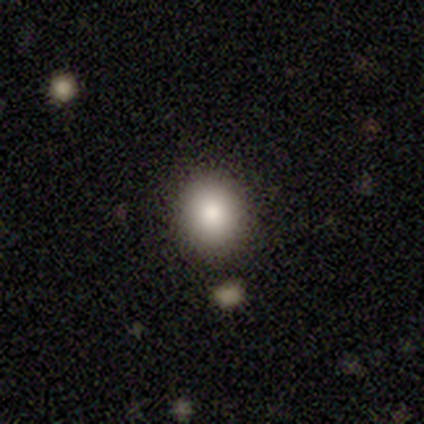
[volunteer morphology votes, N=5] Smooth or featured? 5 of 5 (100%) said smooth. How rounded? 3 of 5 (60%) said round. Merging? 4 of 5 (80%) said none.